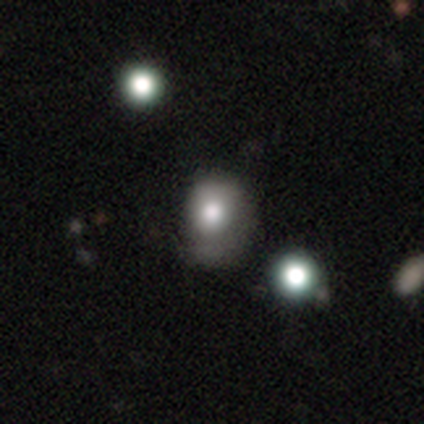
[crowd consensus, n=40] smooth-or-featured: smooth: 75% | featured or disk: 15% | star or artifact: 10%
  how-rounded: round: 53% | in between: 47% | cigar-shaped: 0%
  merging: minor disturbance: 42% | none: 33% | major disturbance: 22% | merger: 3%